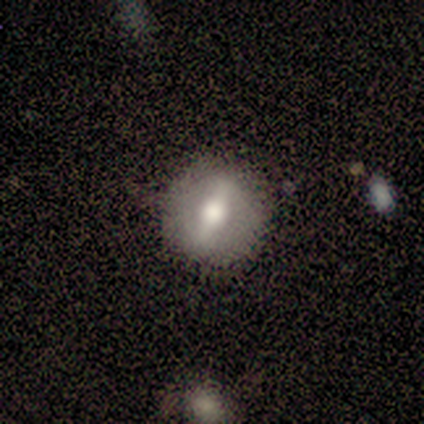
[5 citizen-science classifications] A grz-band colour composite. It shows a smooth galaxy with no disk features (40%, tied with featured or disk) that is round (100%). Merging: none (100%).